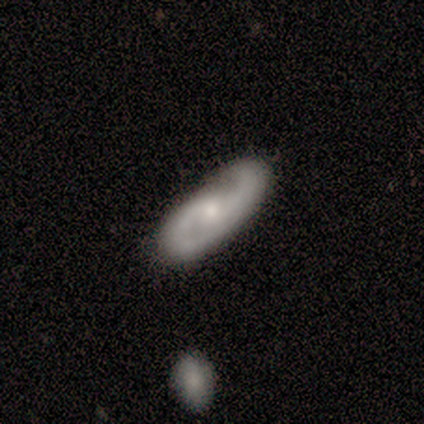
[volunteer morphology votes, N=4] Volunteers were most divided on "bar": no: 75%, weak: 25%, strong: 0%. More confident: smooth or featured — featured or disk (100%); edge-on disk — no (100%); spiral arms — yes (100%); spiral arm count — 2 (100%); merging — none (100%); spiral winding — medium (75%); bulge size — small (75%).